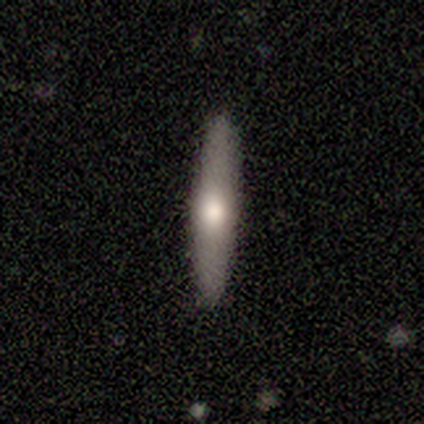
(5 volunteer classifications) smooth_or_featured: featured or disk (p=1.00)
disk_edge_on: yes (p=1.00)
edge_on_bulge: rounded (p=0.80) [alt: none p=0.20]
merging: none (p=1.00)